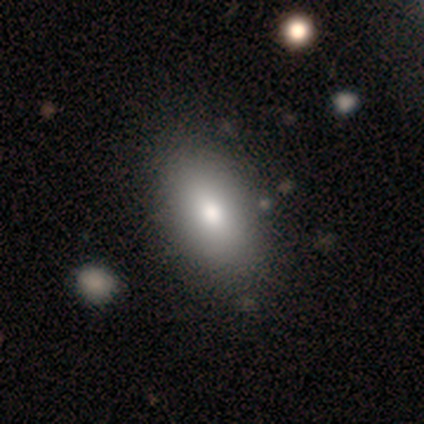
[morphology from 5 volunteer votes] A smooth galaxy with no disk features (40%, tied with star or artifact) that is round (50%, tied with in between).

Vote fractions:
- Smooth or featured? smooth: 40% (tied) / star or artifact: 40% (tied) / featured or disk: 20%
- How rounded? round: 50% (tied) / in between: 50% (tied) / cigar-shaped: 0%
- Merging? none: 67% / minor disturbance: 33% / major disturbance: 0% / merger: 0%